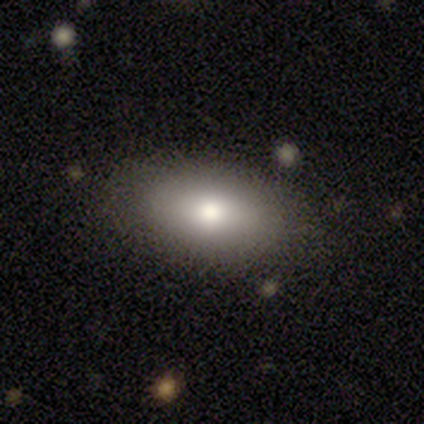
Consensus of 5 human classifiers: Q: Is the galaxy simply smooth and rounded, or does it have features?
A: smooth — 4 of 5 (80%).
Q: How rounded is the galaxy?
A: in between — 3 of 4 (75%).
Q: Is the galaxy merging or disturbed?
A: none — 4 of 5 (80%).